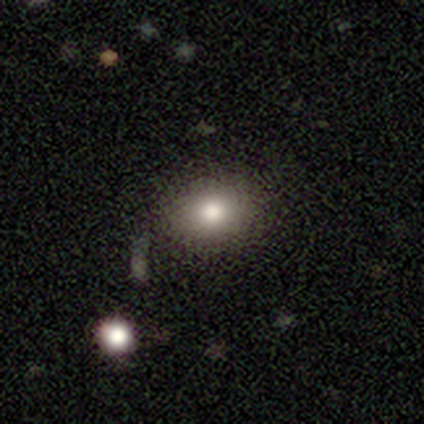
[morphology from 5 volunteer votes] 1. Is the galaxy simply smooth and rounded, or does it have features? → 100% smooth, 0% featured or disk, 0% star or artifact.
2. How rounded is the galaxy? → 60% round, 40% in between, 0% cigar-shaped.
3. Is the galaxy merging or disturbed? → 100% none, 0% minor disturbance, 0% major disturbance, 0% merger.